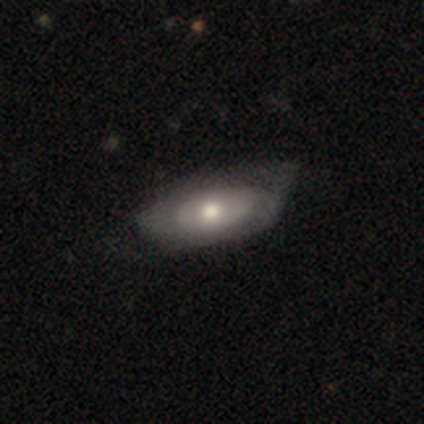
A smooth galaxy with no disk features (71%) that is in between round and cigar-shaped (100%).

Vote fractions:
- Smooth or featured? smooth: 71% / featured or disk: 29% / star or artifact: 0%
- How rounded? in between: 100% / round: 0% / cigar-shaped: 0%
- Merging? minor disturbance: 57% / major disturbance: 29% / none: 14% / merger: 0%